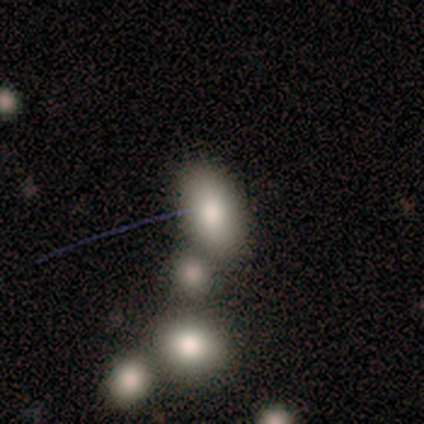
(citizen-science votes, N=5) Smooth or featured: smooth — 80% (star or artifact — 20%)
How rounded: in between — 100%
Merging: none — 50% (tied with merger — 50%)